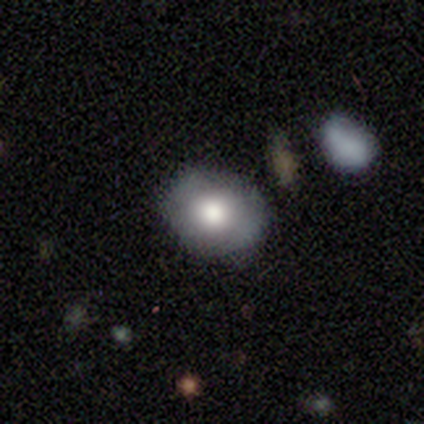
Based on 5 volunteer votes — smooth_or_featured: smooth (p=0.80) [alt: featured or disk p=0.20]
how_rounded: round (p=0.50) [tied with: in between p=0.50]
merging: none (p=0.60) [alt: minor disturbance p=0.20]